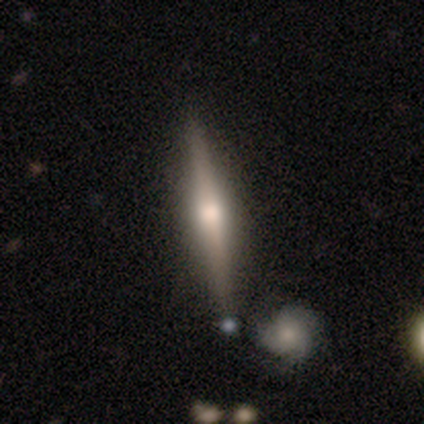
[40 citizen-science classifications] smooth_or_featured: featured or disk (p=0.70) [alt: smooth p=0.28]
disk_edge_on: yes (p=1.00)
edge_on_bulge: rounded (p=0.86) [alt: boxy p=0.07]
merging: none (p=0.85) [alt: minor disturbance p=0.10]